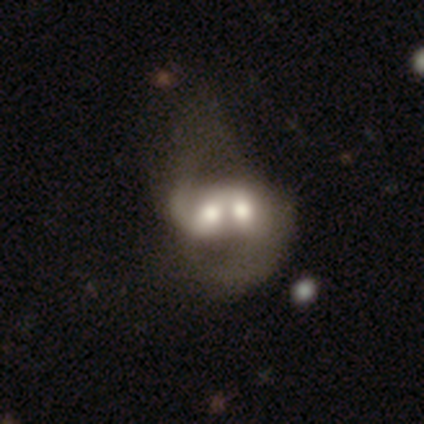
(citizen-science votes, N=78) smooth_or_featured: featured or disk (p=0.63) [alt: smooth p=0.32]
disk_edge_on: no (p=0.98) [alt: yes p=0.02]
bar: no (p=0.62) [alt: weak p=0.23]
has_spiral_arms: yes (p=0.65) [alt: no p=0.35]
spiral_winding: loose (p=0.61) [alt: medium p=0.29]
spiral_arm_count: 2 (p=0.71) [alt: can't tell p=0.16]
bulge_size: moderate (p=0.40) [alt: large p=0.33]
merging: merger (p=0.62) [alt: minor disturbance p=0.01]